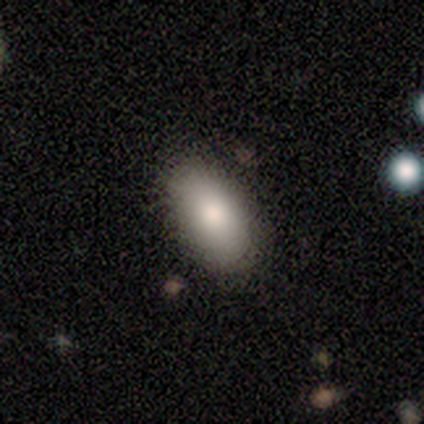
A smooth galaxy with no disk features (100%) that is in between round and cigar-shaped (100%). Merging: none (83%).